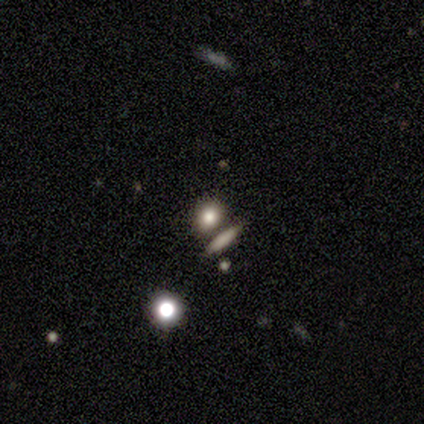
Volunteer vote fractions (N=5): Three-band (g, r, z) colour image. It shows a smooth galaxy with no disk features (60%) that is round (100%). Merging: none (100%).